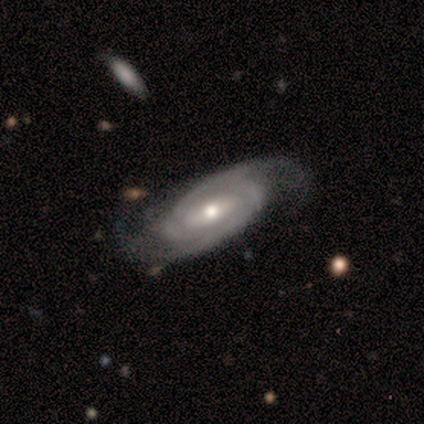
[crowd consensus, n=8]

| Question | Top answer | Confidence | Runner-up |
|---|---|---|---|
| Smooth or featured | featured or disk | 100% | — |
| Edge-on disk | no | 100% | — |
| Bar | weak | 62% | no (38%) |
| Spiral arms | yes | 100% | — |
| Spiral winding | tight | 75% | medium (25%) |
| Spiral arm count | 2 | 75% | 4 (12%) |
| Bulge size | moderate | 62% | none (25%) |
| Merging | none | 88% | minor disturbance (12%) |